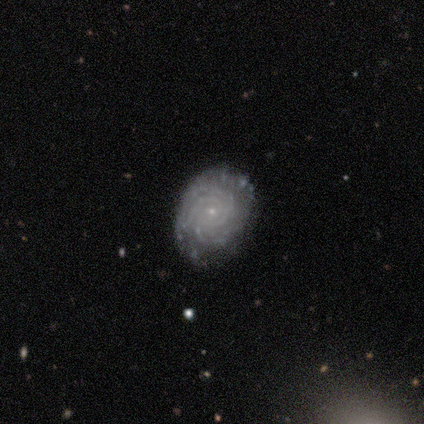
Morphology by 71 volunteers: This appears to be a featured or disk galaxy (86%) with no bar (84%), 3 (40%) tight (93%) spiral arms (98%) and a small central bulge (93%). Merging: none (75%).